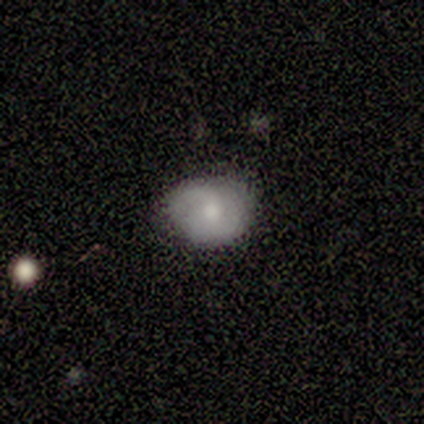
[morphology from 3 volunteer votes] Smooth or featured?
  - smooth: 33% * (tied)
  - featured or disk: 33% * (tied)
  - star or artifact: 33% * (tied)
How rounded?
  - round: 100% *
  - in between: 0%
  - cigar-shaped: 0%
Merging?
  - none: 50% * (tied)
  - minor disturbance: 50% * (tied)
  - major disturbance: 0%
  - merger: 0%